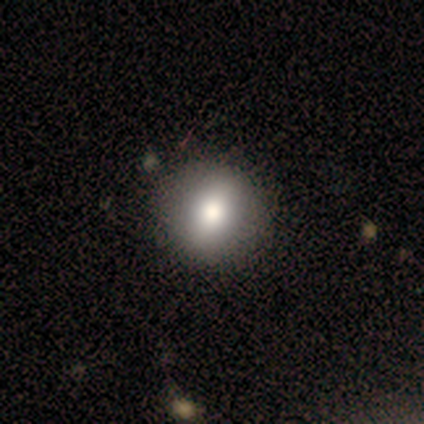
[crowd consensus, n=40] smooth-or-featured: smooth: 70% | featured or disk: 22% | star or artifact: 8%
  how-rounded: round: 68% | in between: 29% | cigar-shaped: 4%
  merging: none: 62% | minor disturbance: 3% | merger: 3% | major disturbance: 0%